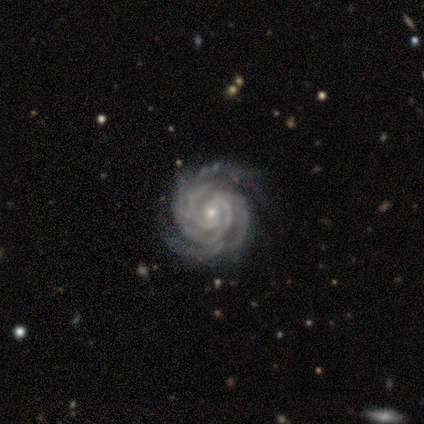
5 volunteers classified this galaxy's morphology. Smooth or featured? 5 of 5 (100%) said featured or disk. Edge-on disk? 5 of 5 (100%) said no. Bar? 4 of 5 (80%) said no. Spiral arms? 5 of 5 (100%) said yes. Spiral winding? 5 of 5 (100%) said tight. Spiral arm count? 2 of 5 (40%, tied with 4) said 3. Bulge size? 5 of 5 (100%) said small. Merging? 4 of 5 (80%) said none.